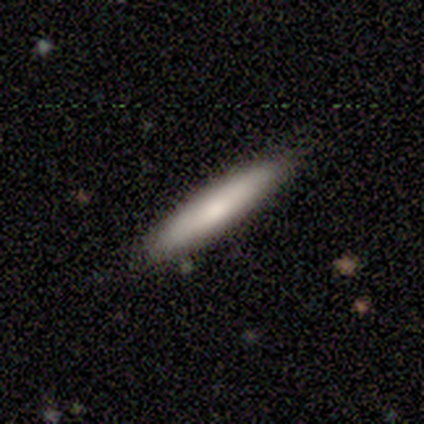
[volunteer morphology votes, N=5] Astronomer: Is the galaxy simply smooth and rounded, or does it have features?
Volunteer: smooth — 80%.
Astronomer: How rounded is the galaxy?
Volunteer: cigar-shaped — 100%.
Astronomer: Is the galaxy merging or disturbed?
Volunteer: none — 100%.